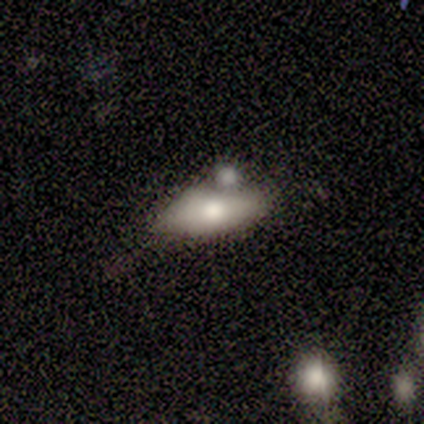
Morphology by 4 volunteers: smooth_or_featured: smooth (p=0.75) [alt: featured or disk p=0.25]
how_rounded: in between (p=1.00)
merging: minor disturbance (p=0.75) [alt: none p=0.25]